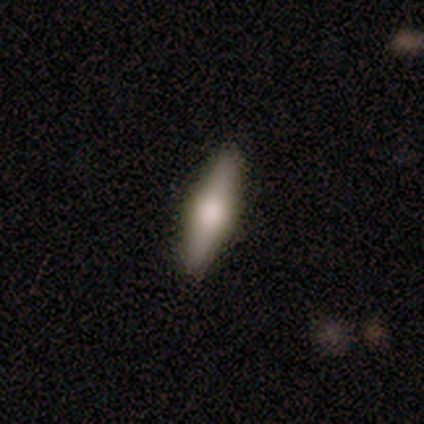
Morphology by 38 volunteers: smooth_or_featured: smooth (p=0.66) [alt: featured or disk p=0.29]
how_rounded: cigar-shaped (p=0.84) [alt: in between p=0.16]
merging: none (p=0.92) [alt: minor disturbance p=0.08]